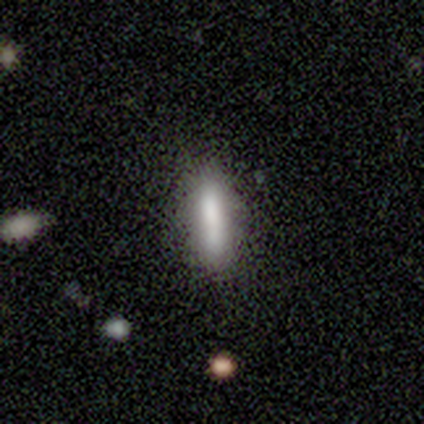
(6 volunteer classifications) A smooth galaxy with no disk features (50%, tied with featured or disk) that is cigar-shaped (100%).

Vote fractions:
- Smooth or featured? smooth: 50% (tied) / featured or disk: 50% (tied) / star or artifact: 0%
- How rounded? cigar-shaped: 100% / round: 0% / in between: 0%
- Merging? none: 67% / minor disturbance: 33% / major disturbance: 0% / merger: 0%